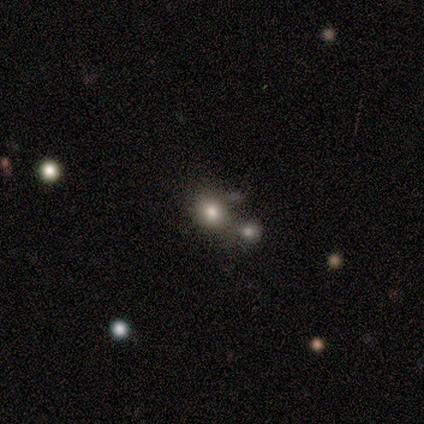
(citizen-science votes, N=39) smooth_or_featured: smooth (p=0.64) [alt: star or artifact p=0.26]
how_rounded: round (p=0.68) [alt: in between p=0.32]
merging: none (p=0.38) [tied with: merger p=0.38]